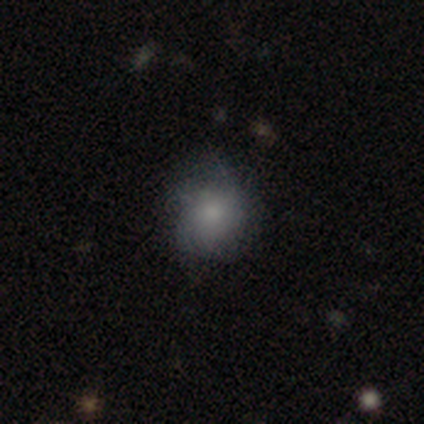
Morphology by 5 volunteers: smooth-or-featured: smooth: 60% | featured or disk: 40% | star or artifact: 0%
  how-rounded: round: 100% | in between: 0% | cigar-shaped: 0%
  merging: minor disturbance: 80% | none: 20% | major disturbance: 0% | merger: 0%